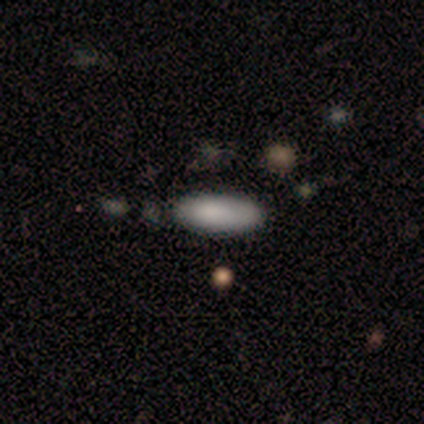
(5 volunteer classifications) smooth 80%, star or artifact 20%, featured or disk 0%. Down the decision tree: how rounded — in between (75%); merging — none (50%).